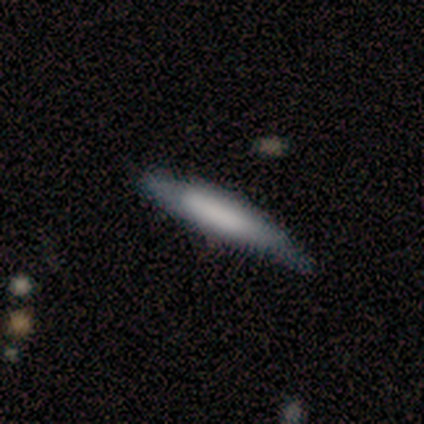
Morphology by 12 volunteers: smooth_or_featured: smooth (p=0.67) [alt: featured or disk p=0.25]
how_rounded: cigar-shaped (p=1.00)
merging: none (p=0.73) [alt: minor disturbance p=0.18]